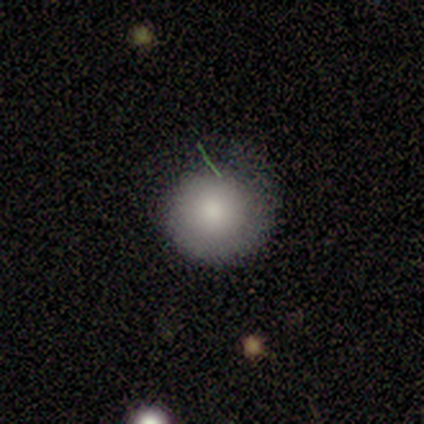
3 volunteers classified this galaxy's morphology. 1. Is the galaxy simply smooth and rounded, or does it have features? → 67% smooth, 33% featured or disk, 0% star or artifact.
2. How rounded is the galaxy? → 100% round, 0% in between, 0% cigar-shaped.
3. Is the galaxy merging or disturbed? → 100% none, 0% minor disturbance, 0% major disturbance, 0% merger.